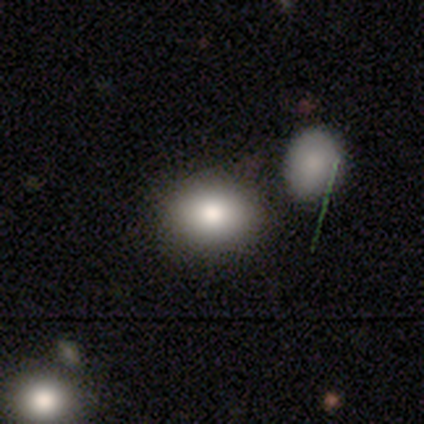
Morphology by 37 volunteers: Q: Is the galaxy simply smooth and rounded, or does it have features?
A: smooth — 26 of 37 (70%).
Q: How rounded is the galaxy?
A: in between — 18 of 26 (69%).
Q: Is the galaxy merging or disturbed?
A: none — 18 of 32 (56%).